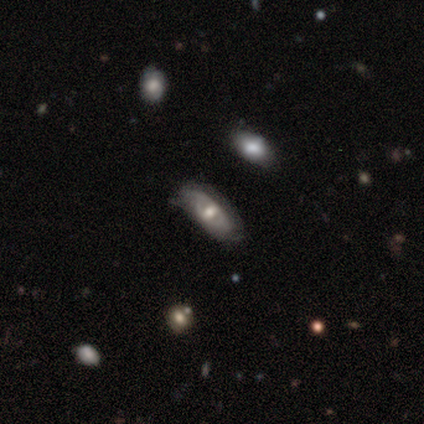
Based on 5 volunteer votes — Smooth or featured?
  - featured or disk: 60% *
  - smooth: 20%
  - star or artifact: 20%
Edge-on disk?
  - no: 100% *
  - yes: 0%
Bar?
  - weak: 67% *
  - no: 33%
  - strong: 0%
Spiral arms?
  - yes: 67% *
  - no: 33%
Spiral winding?
  - medium: 100% *
  - tight: 0%
  - loose: 0%
Spiral arm count?
  - 2: 50% * (tied)
  - can't tell: 50% * (tied)
  - 1: 0%
  - 3: 0%
  - 4: 0%
  - more than 4: 0%
Bulge size?
  - moderate: 100% *
  - dominant: 0%
  - large: 0%
  - small: 0%
  - none: 0%
Merging?
  - none: 100% *
  - minor disturbance: 0%
  - major disturbance: 0%
  - merger: 0%